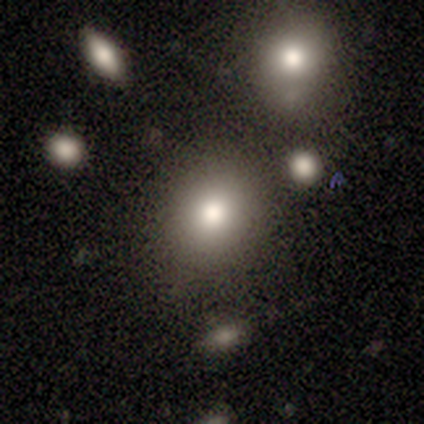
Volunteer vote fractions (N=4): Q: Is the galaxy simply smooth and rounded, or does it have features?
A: smooth — 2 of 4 (50%).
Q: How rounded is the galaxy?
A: round — 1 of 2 (50%, tied with in between).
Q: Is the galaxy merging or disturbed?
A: major disturbance — 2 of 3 (67%).